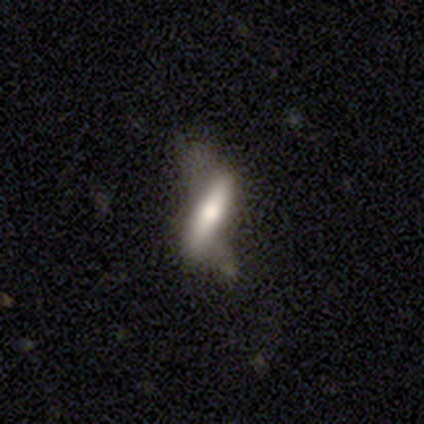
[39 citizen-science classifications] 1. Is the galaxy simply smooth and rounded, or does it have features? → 54% featured or disk, 41% smooth, 5% star or artifact.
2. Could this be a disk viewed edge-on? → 71% yes, 29% no.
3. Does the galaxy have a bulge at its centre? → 87% rounded, 13% boxy, 0% none.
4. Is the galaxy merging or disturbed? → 43% none, 32% major disturbance, 22% minor disturbance, 3% merger.